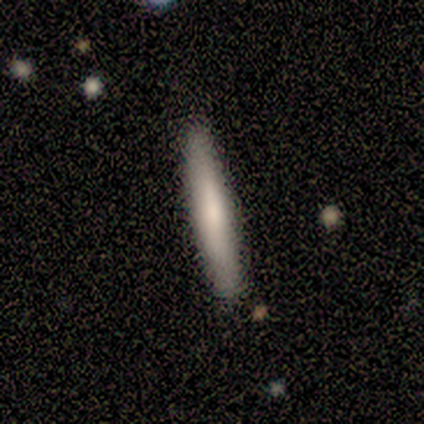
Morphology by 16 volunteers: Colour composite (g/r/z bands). It shows a smooth galaxy with no disk features (75%) that is cigar-shaped (100%). Merging: none (93%).